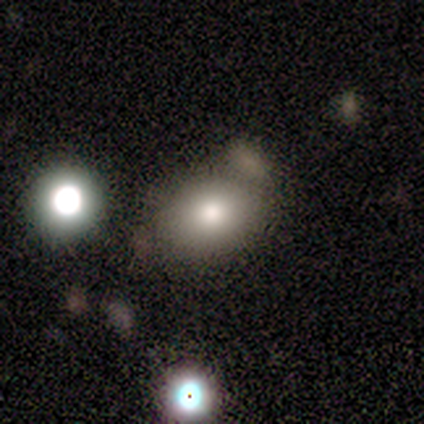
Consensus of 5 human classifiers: This is likely a smooth galaxy (60%). How rounded: clearly in between (100%). Merging: likely none (75%).